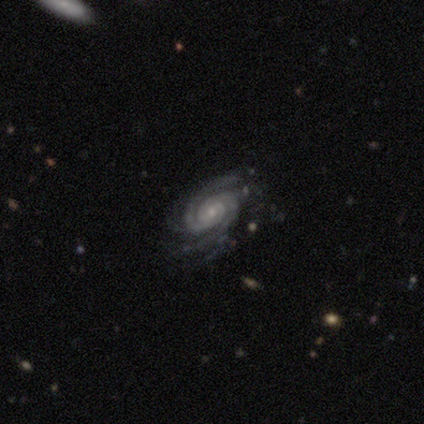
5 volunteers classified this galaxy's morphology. This appears to be a featured or disk galaxy (100%) with a weak bar (60%), 2 (40%, tied with can't tell) medium (60%) spiral arms (100%) and a small central bulge (80%). Merging: none (80%).